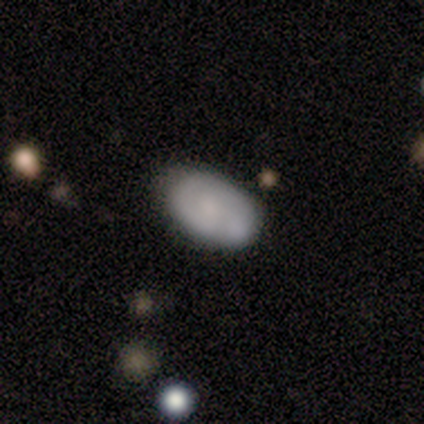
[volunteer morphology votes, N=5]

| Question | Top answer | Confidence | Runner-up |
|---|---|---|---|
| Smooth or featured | smooth | 60% | featured or disk (40%) |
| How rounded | in between | 100% | — |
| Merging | none | 100% | — |